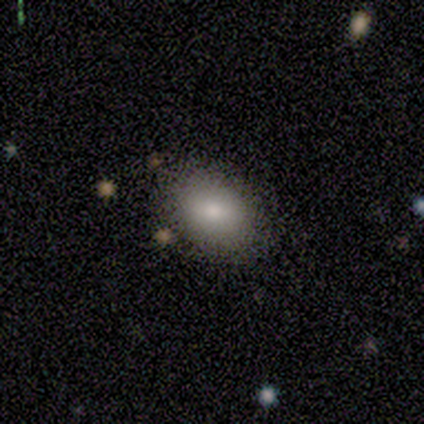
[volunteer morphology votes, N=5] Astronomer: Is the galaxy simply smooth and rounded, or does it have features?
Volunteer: smooth — 60% (runner-up: featured or disk, 40%).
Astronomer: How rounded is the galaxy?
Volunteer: in between — 67%.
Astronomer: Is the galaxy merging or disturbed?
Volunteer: none — 100%.